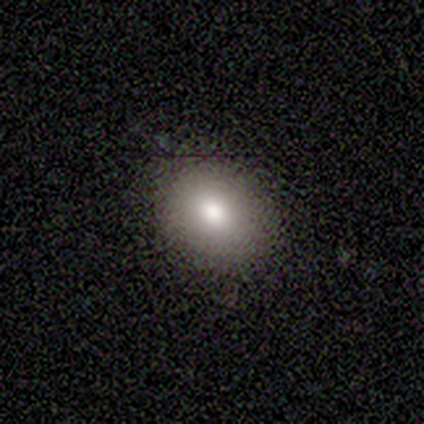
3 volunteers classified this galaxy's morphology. Smooth or featured?
  - smooth: 67% *
  - star or artifact: 33%
  - featured or disk: 0%
How rounded?
  - round: 50% * (tied)
  - in between: 50% * (tied)
  - cigar-shaped: 0%
Merging?
  - none: 100% *
  - minor disturbance: 0%
  - major disturbance: 0%
  - merger: 0%